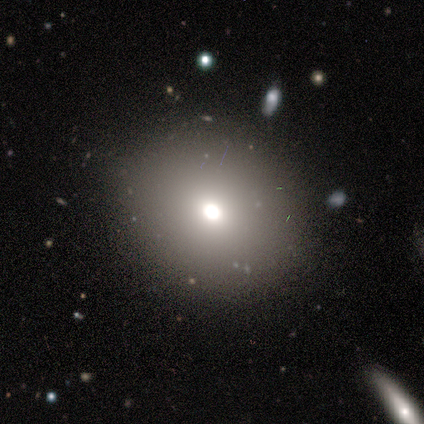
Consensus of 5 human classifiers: A smooth galaxy with no disk features (100%) that is round (100%).

Vote fractions:
- Smooth or featured? smooth: 100% / featured or disk: 0% / star or artifact: 0%
- How rounded? round: 100% / in between: 0% / cigar-shaped: 0%
- Merging? none: 80% / minor disturbance: 20% / major disturbance: 0% / merger: 0%